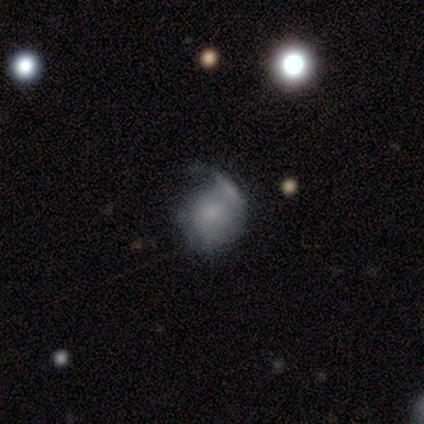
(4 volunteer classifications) A smooth galaxy with no disk features (100%) that is round (100%). Merging: minor disturbance (100%).